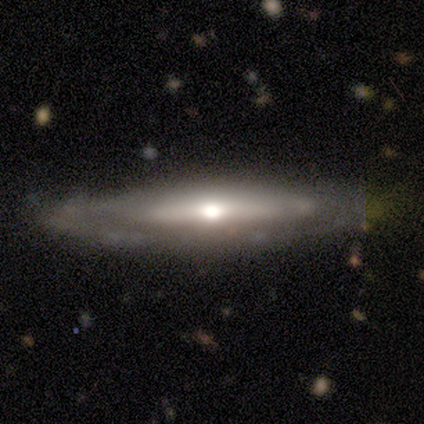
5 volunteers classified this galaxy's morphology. type=featured or disk (60%); edge-on=yes (67%); edge-on bulge=none (50%, tied with rounded); merging=none (80%).